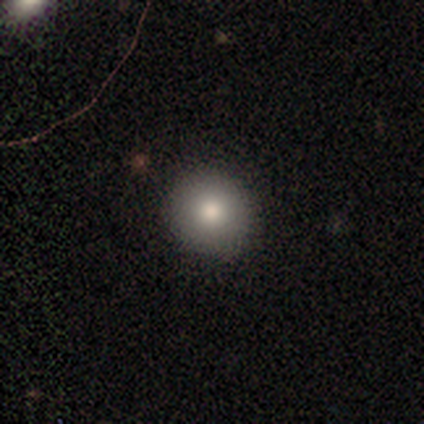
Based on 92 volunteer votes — Smooth or featured? 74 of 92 (80%) said smooth. How rounded? 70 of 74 (95%) said round. Merging? 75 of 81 (93%) said none.